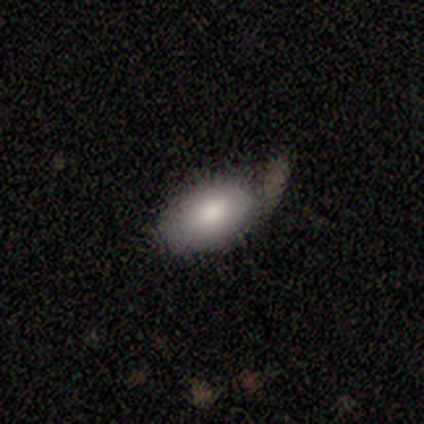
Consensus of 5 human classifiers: This is clearly a smooth galaxy (100%). How rounded: clearly in between (100%). Merging: likely minor disturbance (60%).